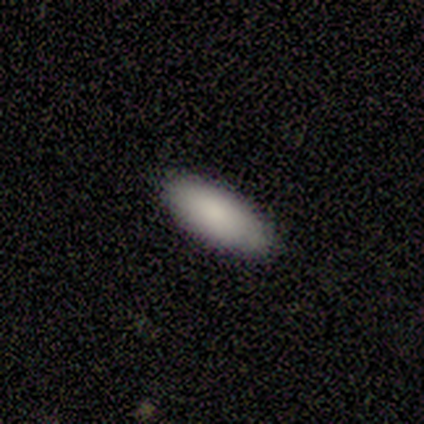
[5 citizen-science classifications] Volunteers were most divided on "how rounded": in between: 60%, cigar-shaped: 40%, round: 0%. More confident: smooth or featured — smooth (100%); merging — none (100%).